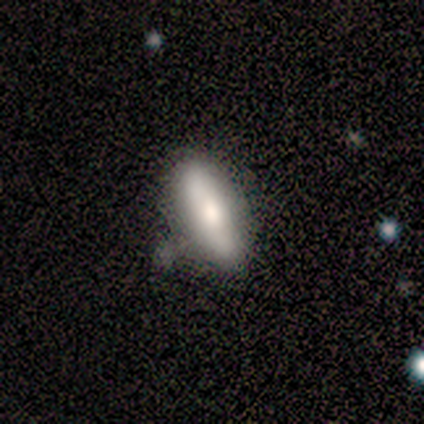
Overall: smooth (68%). How rounded: in between (67%; cigar-shaped 27%). Merging: none (60%; minor disturbance 30%).